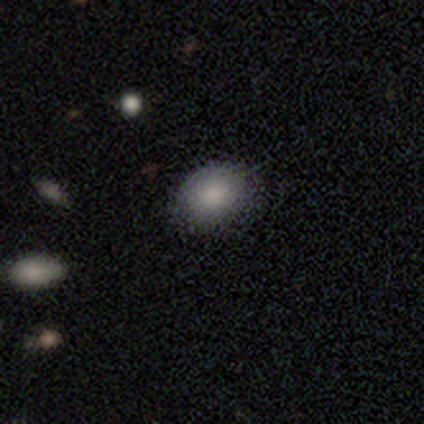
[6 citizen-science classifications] smooth_or_featured: smooth (p=0.83) [alt: star or artifact p=0.17]
how_rounded: in between (p=1.00)
merging: none (p=0.60) [alt: minor disturbance p=0.20]